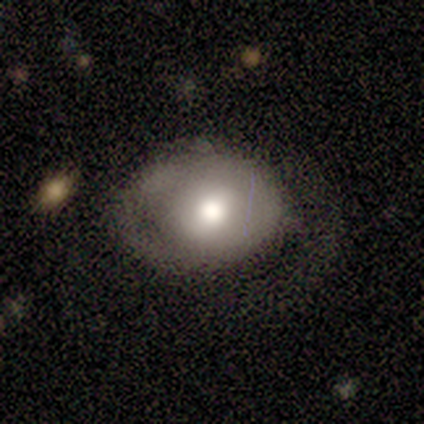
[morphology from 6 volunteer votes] smooth-or-featured: smooth: 67% | featured or disk: 17% | star or artifact: 17%
  how-rounded: in between: 75% | round: 25% | cigar-shaped: 0%
  merging: none: 60% | minor disturbance: 40% | major disturbance: 0% | merger: 0%